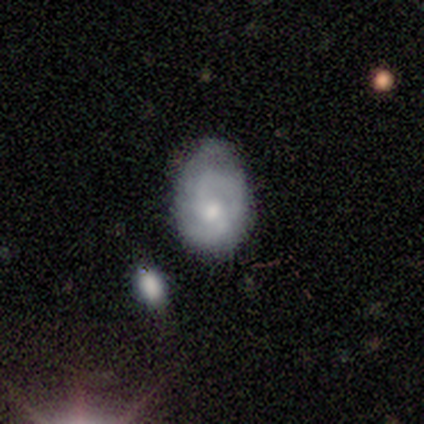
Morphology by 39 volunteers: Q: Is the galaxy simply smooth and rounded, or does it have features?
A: featured or disk — 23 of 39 (59%).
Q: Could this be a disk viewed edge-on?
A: no — 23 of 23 (100%).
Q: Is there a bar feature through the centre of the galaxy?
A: no — 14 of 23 (61%).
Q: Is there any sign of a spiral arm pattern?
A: yes — 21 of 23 (91%).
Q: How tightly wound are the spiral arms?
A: tight — 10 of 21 (48%, tied with medium).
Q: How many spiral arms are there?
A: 2 — 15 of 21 (71%).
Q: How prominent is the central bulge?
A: small — 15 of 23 (65%).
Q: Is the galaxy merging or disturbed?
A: minor disturbance — 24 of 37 (65%).